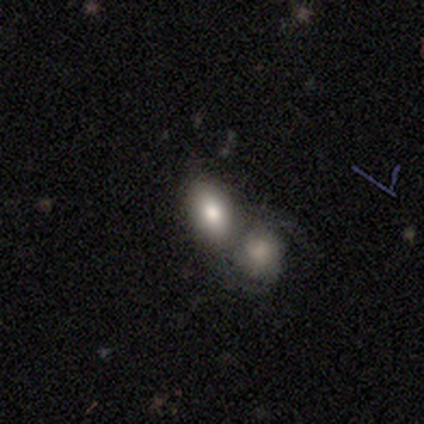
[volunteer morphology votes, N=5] smooth_or_featured: smooth (p=0.80) [alt: featured or disk p=0.20]
how_rounded: in between (p=1.00)
merging: merger (p=0.80) [alt: none p=0.20]